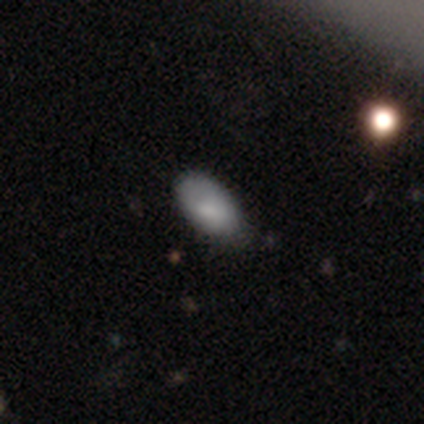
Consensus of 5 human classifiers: Morphology: type=smooth (100%); roundness=in between (80%); merging=none (60%).